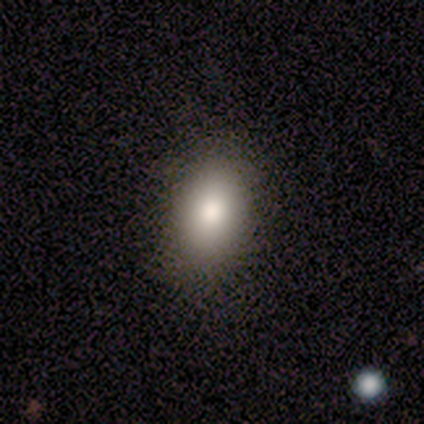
This is likely a smooth galaxy (75%). How rounded: clearly in between (100%). Merging: clearly none (100%).